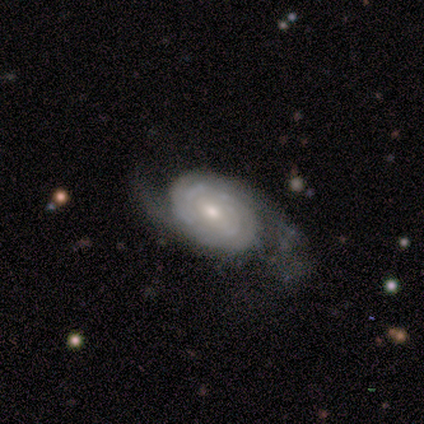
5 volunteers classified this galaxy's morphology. A featured or disk galaxy (100%) with no bar (60%), tight (60%) spiral arms (100%) and a moderate central bulge (80%). Merging: none (40%, tied with major disturbance).